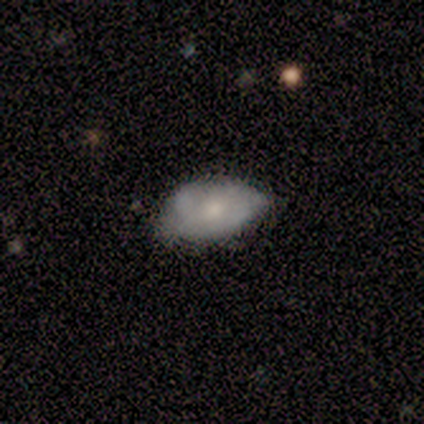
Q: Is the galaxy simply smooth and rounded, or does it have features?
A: smooth — 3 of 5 (60%).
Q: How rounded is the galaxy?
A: in between — 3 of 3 (100%).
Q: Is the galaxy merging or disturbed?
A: none — 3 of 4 (75%).